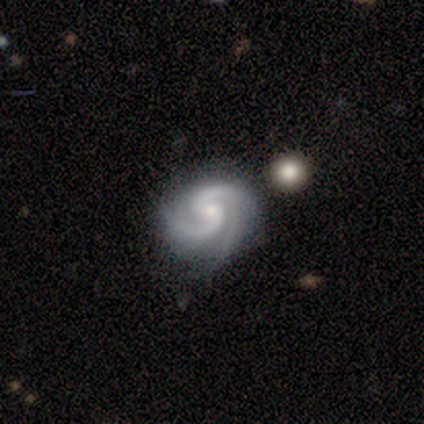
smooth_or_featured: featured or disk (p=1.00)
disk_edge_on: no (p=1.00)
bar: no (p=1.00)
has_spiral_arms: yes (p=1.00)
spiral_winding: medium (p=0.67) [alt: tight p=0.33]
spiral_arm_count: 2 (p=1.00)
bulge_size: small (p=0.67) [alt: moderate p=0.33]
merging: none (p=0.33) [tied with: minor disturbance p=0.33, merger p=0.33]